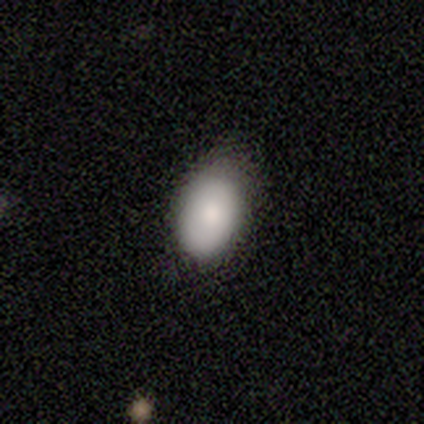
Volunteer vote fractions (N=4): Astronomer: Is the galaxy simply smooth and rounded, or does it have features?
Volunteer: smooth — 75%.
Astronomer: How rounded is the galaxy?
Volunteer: in between — 100%.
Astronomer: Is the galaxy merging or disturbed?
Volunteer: none — 67%.